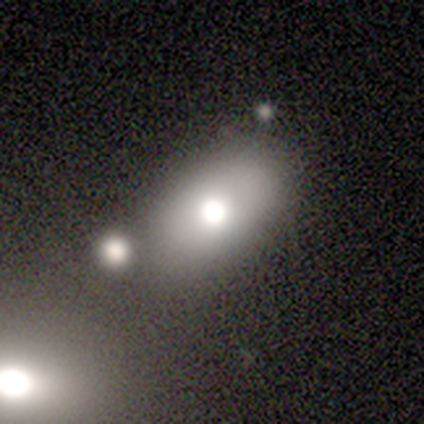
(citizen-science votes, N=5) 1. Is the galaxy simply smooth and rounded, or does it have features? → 60% smooth, 40% star or artifact, 0% featured or disk.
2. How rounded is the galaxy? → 67% in between, 33% round, 0% cigar-shaped.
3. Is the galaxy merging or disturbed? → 100% minor disturbance, 0% none, 0% major disturbance, 0% merger.